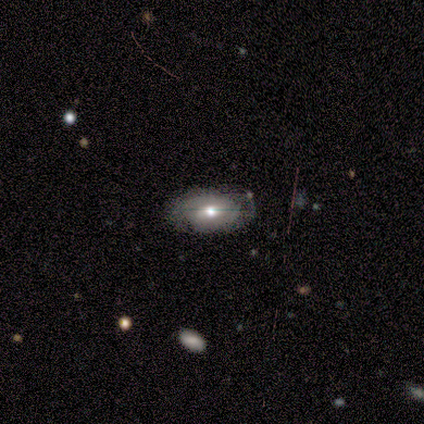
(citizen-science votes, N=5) featured or disk 60%, smooth 40%, star or artifact 0%. Down the decision tree: edge-on disk — no (100%); bar — no (67%); spiral arms — yes (100%); spiral arm count — can't tell (67%); spiral winding — tight (67%); bulge size — large (67%); merging — none (60%).